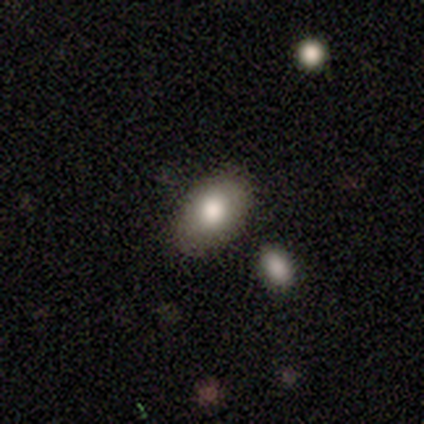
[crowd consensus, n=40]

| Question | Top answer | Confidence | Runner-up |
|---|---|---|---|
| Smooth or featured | smooth | 80% | star or artifact (15%) |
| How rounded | in between | 81% | round (19%) |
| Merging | none | 88% | merger (9%) |